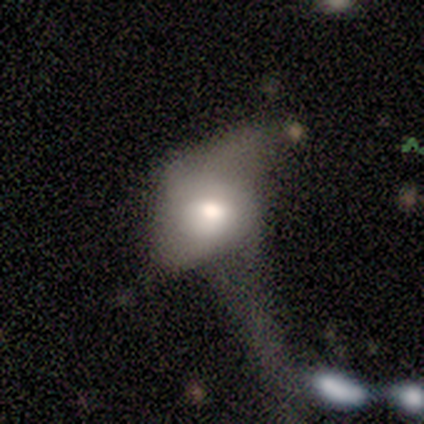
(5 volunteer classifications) smooth-or-featured: featured or disk: 80% | smooth: 20% | star or artifact: 0%
  disk-edge-on: no: 100% | yes: 0%
    bar: no: 100% | strong: 0% | weak: 0%
    has-spiral-arms: no: 75% | yes: 25%
    bulge-size: moderate: 75% | small: 25% | dominant: 0% | large: 0% | none: 0%
  merging: major disturbance: 60% | minor disturbance: 20% | merger: 20% | none: 0%